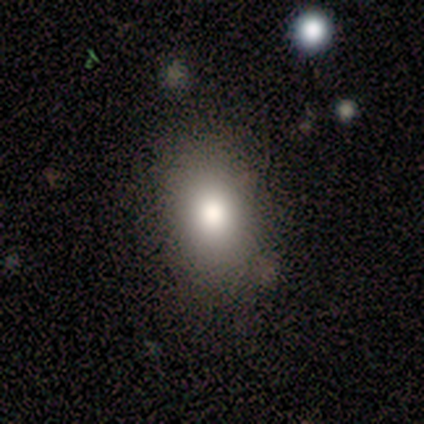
Smooth or featured: smooth — 80% (star or artifact — 20%)
How rounded: in between — 75% (round — 25%)
Merging: none — 75% (minor disturbance — 25%)